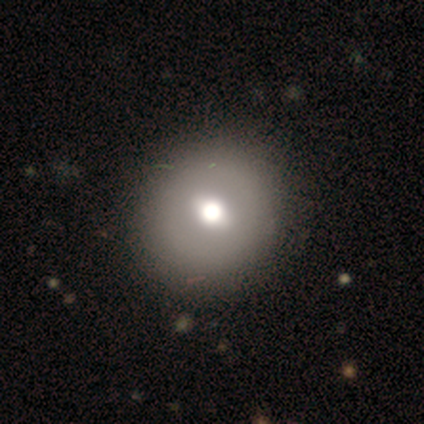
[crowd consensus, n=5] A smooth galaxy with no disk features (40%, tied with star or artifact) that is round (100%). Merging: none (100%).